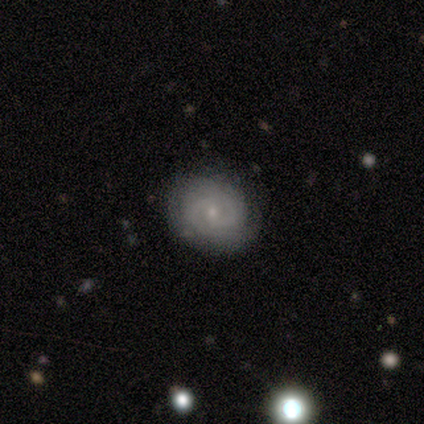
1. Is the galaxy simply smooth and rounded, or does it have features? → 100% featured or disk, 0% smooth, 0% star or artifact.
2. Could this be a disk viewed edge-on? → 100% no, 0% yes.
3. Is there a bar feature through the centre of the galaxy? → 75% weak, 25% no, 0% strong.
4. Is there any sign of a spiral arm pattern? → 100% yes, 0% no.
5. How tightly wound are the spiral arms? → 100% medium, 0% tight, 0% loose.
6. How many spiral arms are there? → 100% 2, 0% 1, 0% 3, 0% 4, 0% more than 4, 0% can't tell.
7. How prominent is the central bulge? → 75% small, 25% moderate, 0% dominant, 0% large, 0% none.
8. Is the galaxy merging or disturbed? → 75% none, 25% minor disturbance, 0% major disturbance, 0% merger.